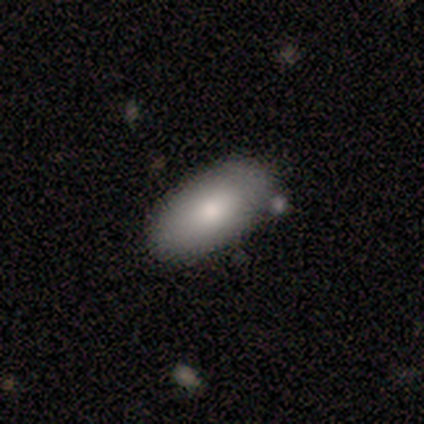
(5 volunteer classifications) Overall: smooth (100%). How rounded: in between (100%). Merging: none (80%).